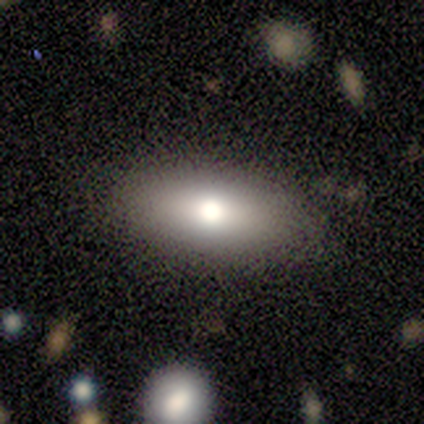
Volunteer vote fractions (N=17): Overall: smooth (100%). How rounded: in between (82%). Merging: none (88%).